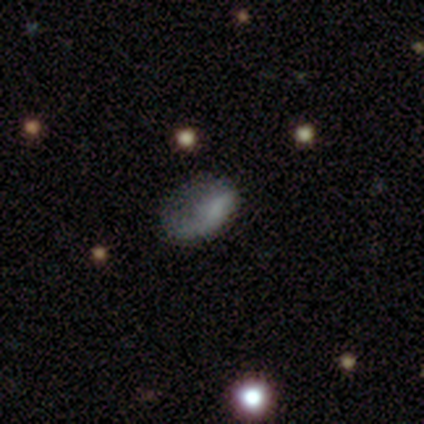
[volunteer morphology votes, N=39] Q: Smooth or featured?
A: smooth (46%); runner-up: featured or disk (44%)
Q: How rounded?
A: in between (78%); runner-up: round (17%)
Q: Merging?
A: none (43%); runner-up: major disturbance (37%)